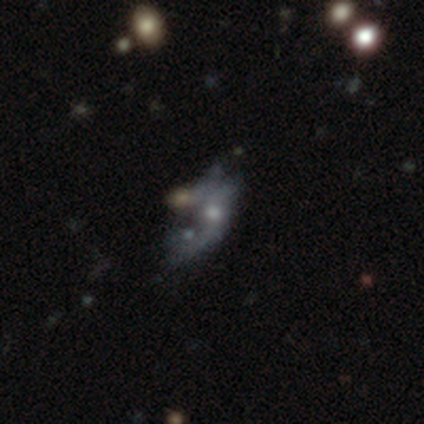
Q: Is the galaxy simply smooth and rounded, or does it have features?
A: smooth — 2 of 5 (40%, tied with star or artifact).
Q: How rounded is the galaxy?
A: in between — 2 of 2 (100%).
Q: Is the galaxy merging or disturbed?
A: merger — 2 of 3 (67%).